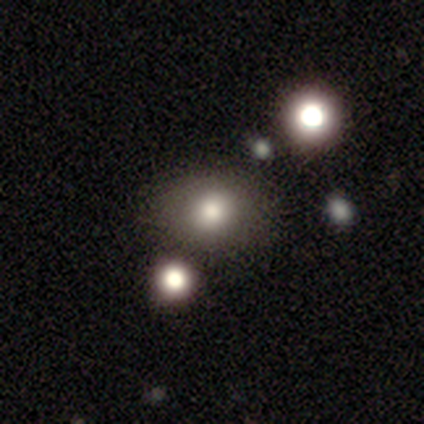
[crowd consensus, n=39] This is likely a smooth galaxy (64%). How rounded: likely round (60%). Merging: marginally none (43%).